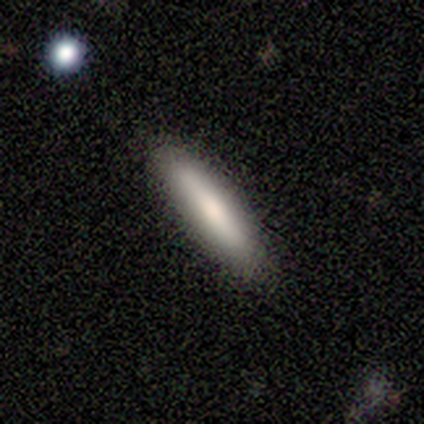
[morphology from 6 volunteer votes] Smooth or featured? smooth (83%)
How rounded? cigar-shaped (60%)
Merging? none (80%)